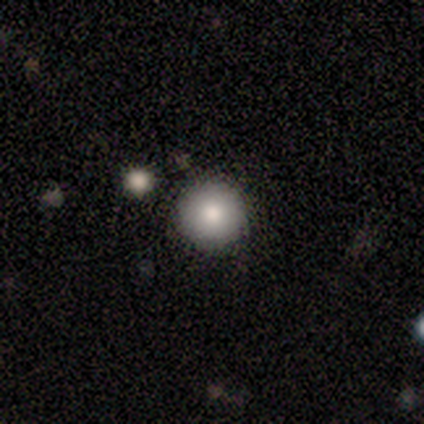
A smooth galaxy with no disk features (60%) that is round (100%).

Vote fractions:
- Smooth or featured? smooth: 60% / featured or disk: 20% / star or artifact: 20%
- How rounded? round: 100% / in between: 0% / cigar-shaped: 0%
- Merging? none: 75% / merger: 25% / minor disturbance: 0% / major disturbance: 0%